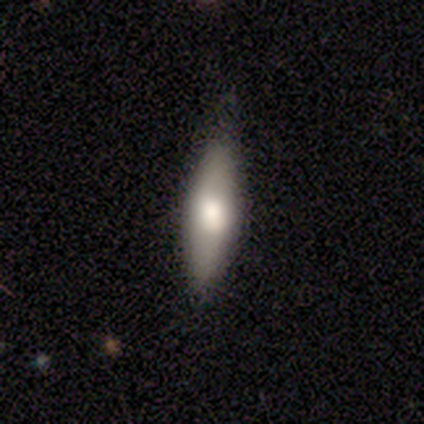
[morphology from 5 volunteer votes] Smooth or featured? smooth (60%)
How rounded? cigar-shaped (67%)
Merging? none (80%)